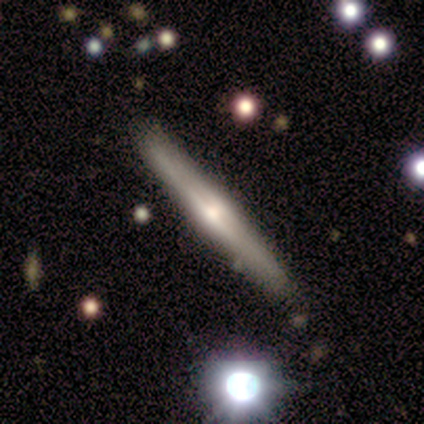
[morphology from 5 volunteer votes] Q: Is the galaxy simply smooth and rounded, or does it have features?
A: featured or disk — 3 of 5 (60%).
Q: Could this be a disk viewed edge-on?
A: yes — 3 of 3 (100%).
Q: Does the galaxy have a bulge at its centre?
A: rounded — 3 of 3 (100%).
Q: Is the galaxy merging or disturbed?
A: none — 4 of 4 (100%).